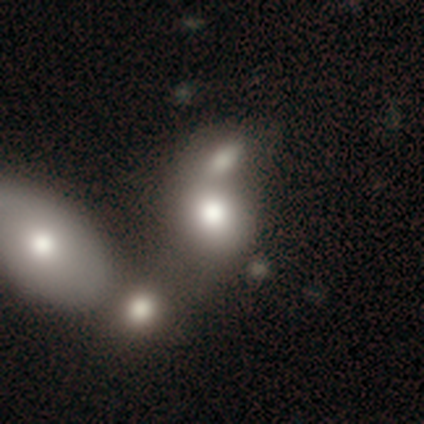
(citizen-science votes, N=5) Overall: smooth (40%, tied with star or artifact). How rounded: round (100%). Merging: none (33%, tied with minor disturbance and merger).